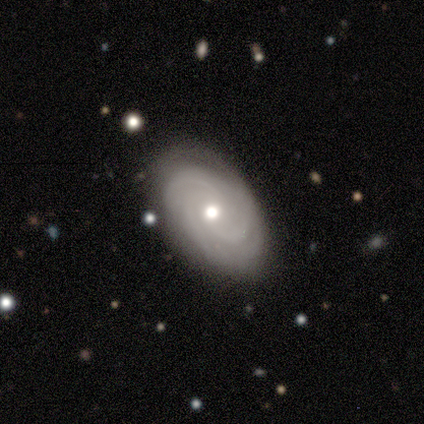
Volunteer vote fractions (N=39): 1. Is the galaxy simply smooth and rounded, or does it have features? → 79% featured or disk, 13% smooth, 8% star or artifact.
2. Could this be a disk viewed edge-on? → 94% no, 6% yes.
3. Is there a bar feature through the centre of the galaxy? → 83% no, 17% weak, 0% strong.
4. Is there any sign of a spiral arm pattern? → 86% yes, 14% no.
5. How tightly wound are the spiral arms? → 64% tight, 28% medium, 8% loose.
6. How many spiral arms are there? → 40% 3, 24% can't tell, 20% 2, 12% more than 4, 4% 4, 0% 1.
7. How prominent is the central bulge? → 79% moderate, 14% small, 3% dominant, 3% none, 0% large.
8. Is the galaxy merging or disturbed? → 81% none, 11% minor disturbance, 8% major disturbance, 0% merger.